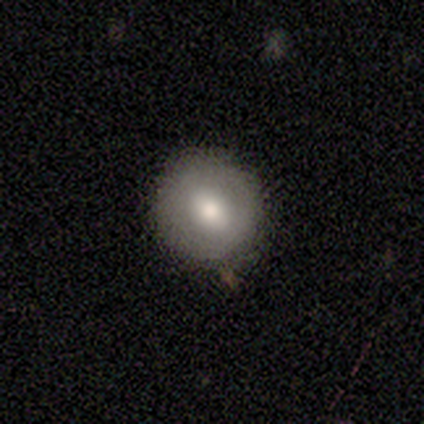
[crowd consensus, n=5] Volunteers were most divided on "how rounded": round: 67%, in between: 33%, cigar-shaped: 0%. More confident: merging — none (100%); smooth or featured — smooth (60%).